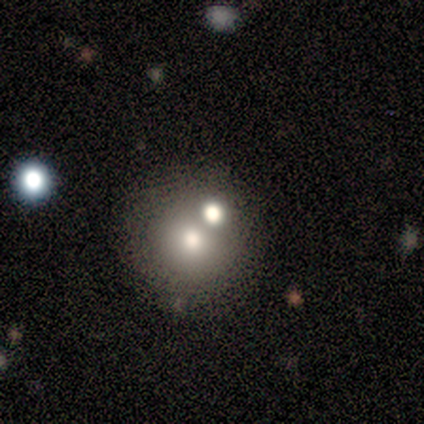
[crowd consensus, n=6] This appears to be a smooth galaxy with no disk features (83%) that is round (100%). Merging: none (50%, tied with merger).